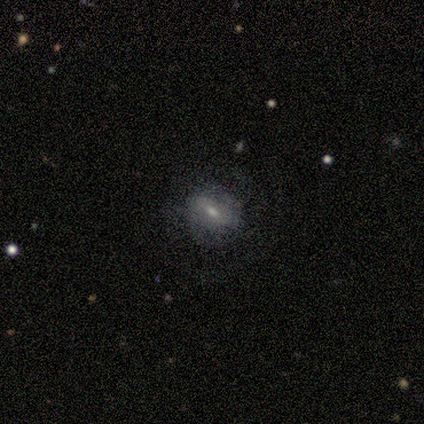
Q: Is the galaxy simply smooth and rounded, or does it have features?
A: smooth — 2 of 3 (67%).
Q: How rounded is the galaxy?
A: round — 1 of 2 (50%, tied with in between).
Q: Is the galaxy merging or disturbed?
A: none — 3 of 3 (100%).